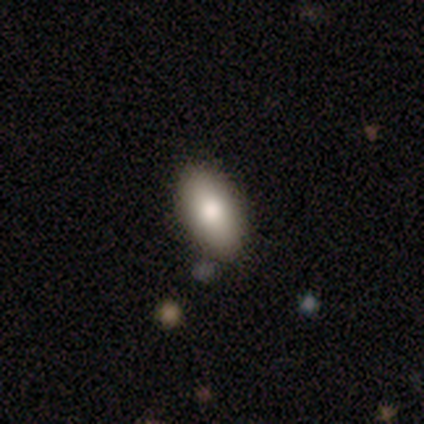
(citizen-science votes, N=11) Smooth or featured: smooth — 82% (featured or disk — 9%)
How rounded: in between — 100%
Merging: none — 90% (merger — 10%)